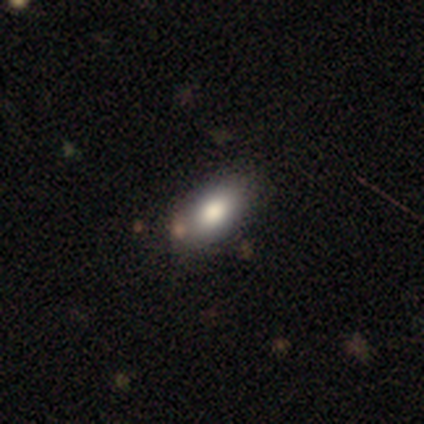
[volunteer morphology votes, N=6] smooth_or_featured: smooth (p=0.83) [alt: featured or disk p=0.17]
how_rounded: in between (p=1.00)
merging: none (p=0.83) [alt: minor disturbance p=0.17]